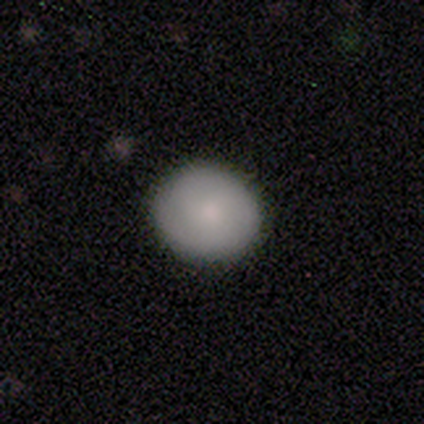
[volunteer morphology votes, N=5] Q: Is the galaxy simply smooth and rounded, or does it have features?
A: smooth — 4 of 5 (80%).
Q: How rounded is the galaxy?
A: round — 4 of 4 (100%).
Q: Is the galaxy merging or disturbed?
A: none — 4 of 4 (100%).